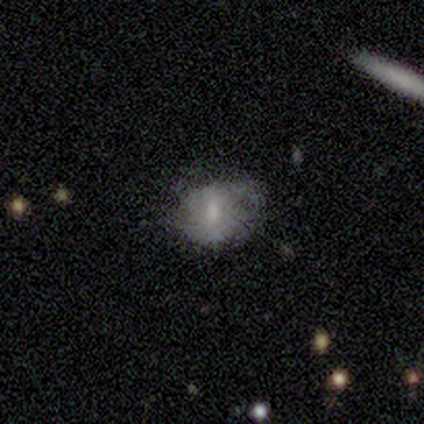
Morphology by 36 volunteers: smooth 50%, featured or disk 39%, star or artifact 11%. Down the decision tree: how rounded — round (67%); merging — none (50%).